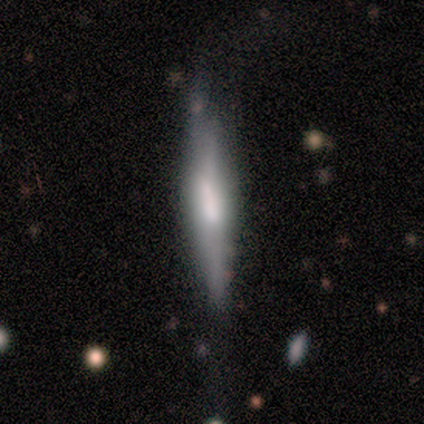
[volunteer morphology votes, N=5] type=smooth (60%); roundness=cigar-shaped (100%); merging=none (60%).